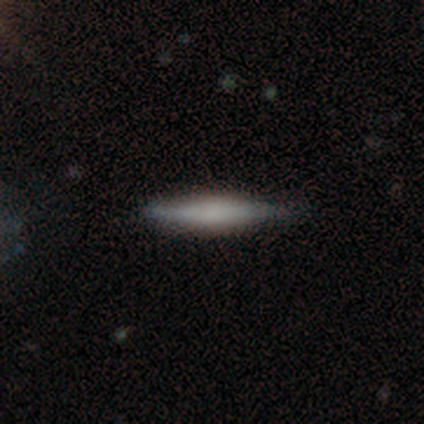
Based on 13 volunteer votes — Volunteers were most divided on "smooth or featured": smooth: 69%, featured or disk: 31%, star or artifact: 0%. More confident: how rounded — cigar-shaped (100%); merging — none (85%).